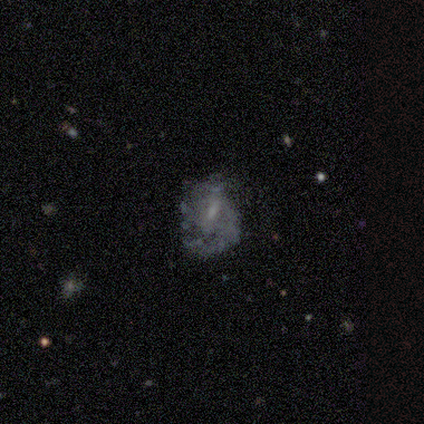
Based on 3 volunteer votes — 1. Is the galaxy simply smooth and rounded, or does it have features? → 67% featured or disk, 33% smooth, 0% star or artifact.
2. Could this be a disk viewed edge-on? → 100% no, 0% yes.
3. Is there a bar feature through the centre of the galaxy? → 100% no, 0% strong, 0% weak.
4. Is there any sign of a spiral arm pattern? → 100% yes, 0% no.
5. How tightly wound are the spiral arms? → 50% tight (tied), 50% medium (tied), 0% loose.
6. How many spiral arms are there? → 50% 1 (tied), 50% 2 (tied), 0% 3, 0% 4, 0% more than 4, 0% can't tell.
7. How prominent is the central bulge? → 100% moderate, 0% dominant, 0% large, 0% small, 0% none.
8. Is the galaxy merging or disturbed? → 67% none, 33% minor disturbance, 0% major disturbance, 0% merger.